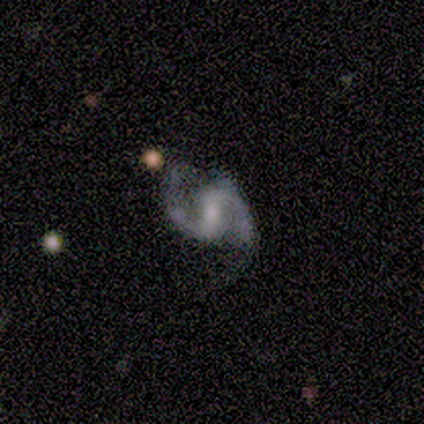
Smooth or featured: featured or disk — 100%
Edge-on disk: no — 100%
Bar: strong — 40% (tied with no — 40%)
Spiral arms: yes — 100%
Spiral winding: tight — 40% (tied with medium — 40%)
Spiral arm count: 2 — 100%
Bulge size: small — 40% (tied with none — 40%)
Merging: none — 100%